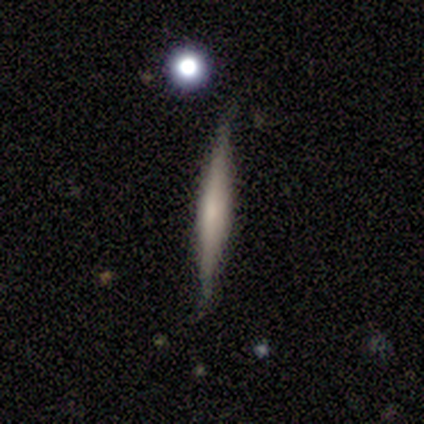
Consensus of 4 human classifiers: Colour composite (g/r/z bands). It shows a smooth galaxy with no disk features (50%) that is cigar-shaped (100%). Merging: none (100%).